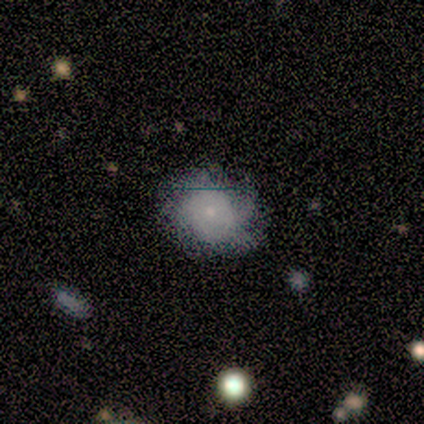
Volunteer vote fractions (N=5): Q: Smooth or featured?
A: smooth (80%); runner-up: featured or disk (20%)
Q: How rounded?
A: round (75%); runner-up: in between (25%)
Q: Merging?
A: none (60%); runner-up: minor disturbance (20%)